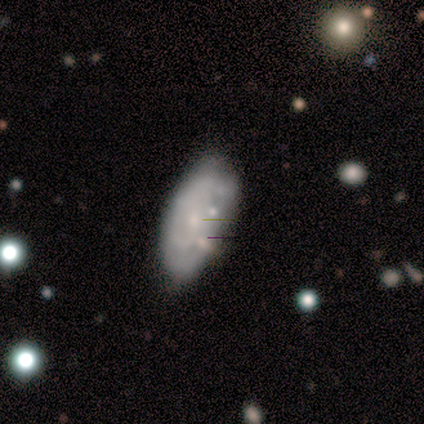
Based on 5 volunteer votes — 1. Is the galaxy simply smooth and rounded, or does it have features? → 80% featured or disk, 20% smooth, 0% star or artifact.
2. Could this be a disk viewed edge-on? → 100% no, 0% yes.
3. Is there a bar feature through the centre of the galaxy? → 75% no, 25% weak, 0% strong.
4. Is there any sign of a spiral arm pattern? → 50% yes (tied), 50% no (tied).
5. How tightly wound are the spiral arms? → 50% tight (tied), 50% loose (tied), 0% medium.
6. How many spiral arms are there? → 100% 2, 0% 1, 0% 3, 0% 4, 0% more than 4, 0% can't tell.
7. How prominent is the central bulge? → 75% small, 25% none, 0% dominant, 0% large, 0% moderate.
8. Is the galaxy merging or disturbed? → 40% major disturbance, 20% none, 20% minor disturbance, 20% merger.